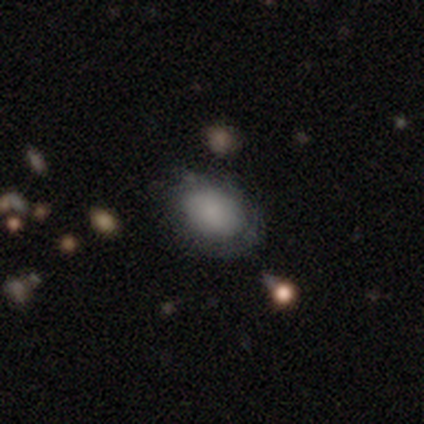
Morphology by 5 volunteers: smooth-or-featured: smooth: 100% | featured or disk: 0% | star or artifact: 0%
  how-rounded: in between: 60% | round: 40% | cigar-shaped: 0%
  merging: none: 40% (tied) | minor disturbance: 40% (tied) | major disturbance: 20% | merger: 0%